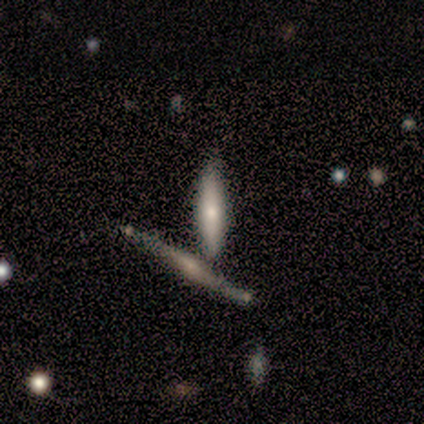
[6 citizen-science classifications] smooth-or-featured: smooth: 67% | featured or disk: 33% | star or artifact: 0%
  how-rounded: cigar-shaped: 100% | round: 0% | in between: 0%
  merging: none: 67% | merger: 33% | minor disturbance: 0% | major disturbance: 0%